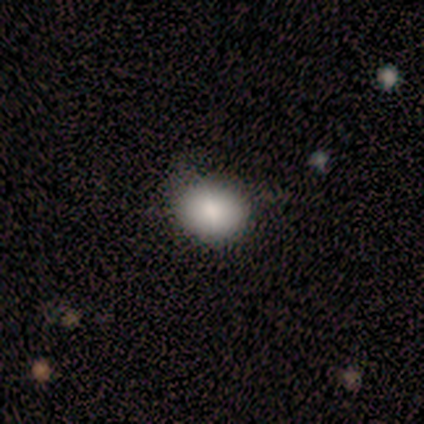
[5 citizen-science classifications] Q: Smooth or featured?
A: smooth (100%)
Q: How rounded?
A: round (60%); runner-up: in between (40%)
Q: Merging?
A: minor disturbance (60%); runner-up: none (40%)